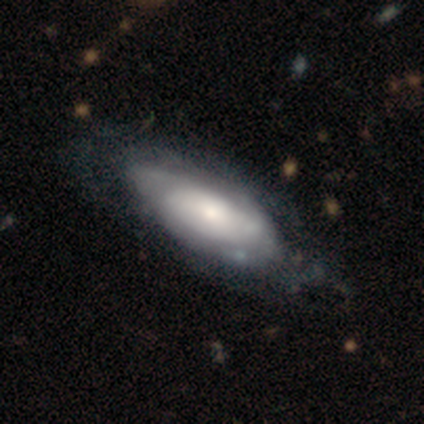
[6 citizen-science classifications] Smooth or featured: featured or disk — 67% (smooth — 33%)
Edge-on disk: no — 100%
Bar: no — 75% (weak — 25%)
Spiral arms: yes — 75% (no — 25%)
Spiral winding: tight — 33% (tied with medium — 33%; loose — 33%)
Spiral arm count: can't tell — 100%
Bulge size: small — 50% (large — 25%)
Merging: none — 83% (major disturbance — 17%)